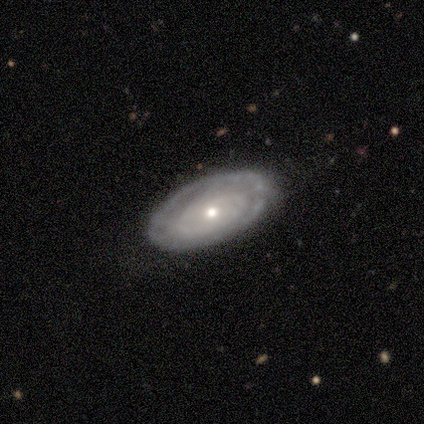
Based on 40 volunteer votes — A featured or disk galaxy (72%) with no bar (81%), no spiral arms (69%) and a small central bulge (73%).

Vote fractions:
- Smooth or featured? featured or disk: 72% / smooth: 28% / star or artifact: 0%
- Edge-on disk? no: 90% / yes: 10%
- Bar? no: 81% / weak: 15% / strong: 4%
- Spiral arms? no: 69% / yes: 31%
- Bulge size? small: 73% / moderate: 15% / dominant: 4% / large: 4% / none: 4%
- Merging? none: 82% / minor disturbance: 18% / major disturbance: 0% / merger: 0%